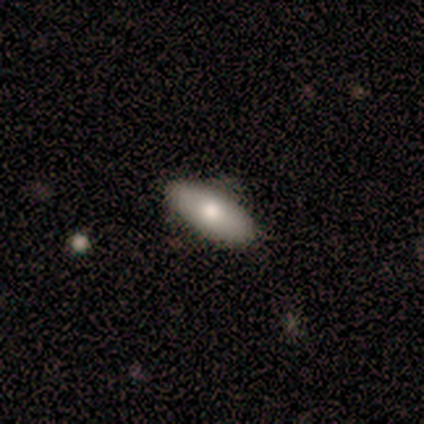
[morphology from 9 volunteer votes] smooth 67%, featured or disk 22%, star or artifact 11%. Down the decision tree: how rounded — in between (67%); merging — none (88%).